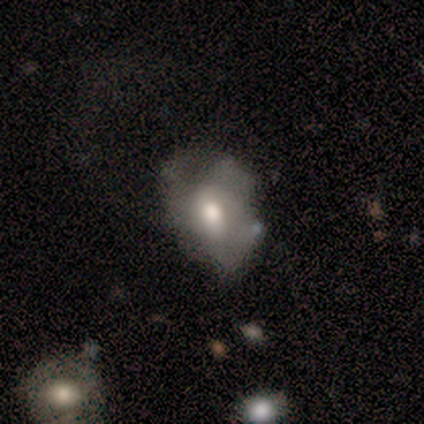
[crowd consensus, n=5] Smooth or featured: smooth — 80% (featured or disk — 20%)
How rounded: in between — 75% (round — 25%)
Merging: minor disturbance — 60% (none — 20%)